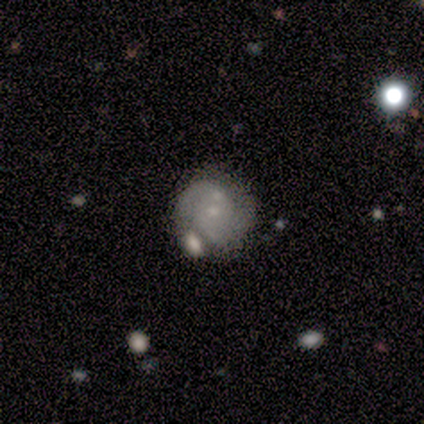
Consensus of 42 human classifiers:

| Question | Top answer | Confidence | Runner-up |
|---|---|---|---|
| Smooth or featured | featured or disk | 69% | smooth (26%) |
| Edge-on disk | no | 100% | — |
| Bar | no | 72% | weak (24%) |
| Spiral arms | yes | 79% | no (21%) |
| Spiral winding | tight | 61% | medium (26%) |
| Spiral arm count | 2 | 52% | can't tell (30%) |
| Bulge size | small | 69% | none (24%) |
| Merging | merger | 35% | minor disturbance (28%) |